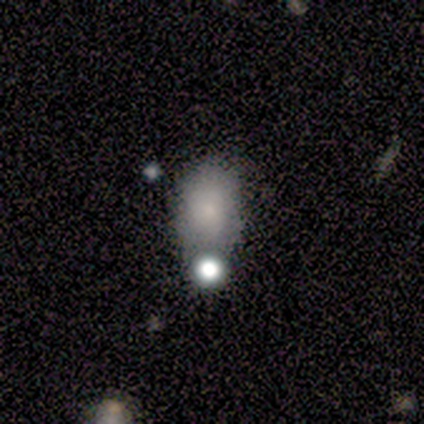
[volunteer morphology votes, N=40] Smooth or featured? smooth (72%)
How rounded? in between (90%)
Merging? none (50%)